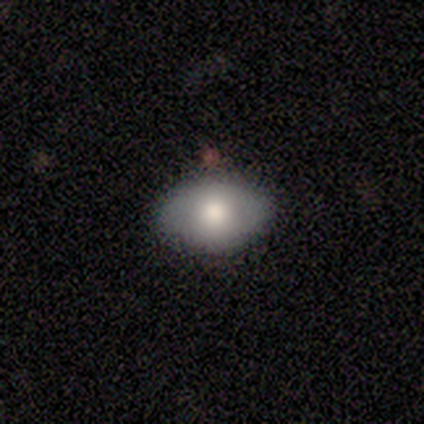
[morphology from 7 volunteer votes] A smooth galaxy with no disk features (86%) that is in between round and cigar-shaped (100%). Merging: none (100%).